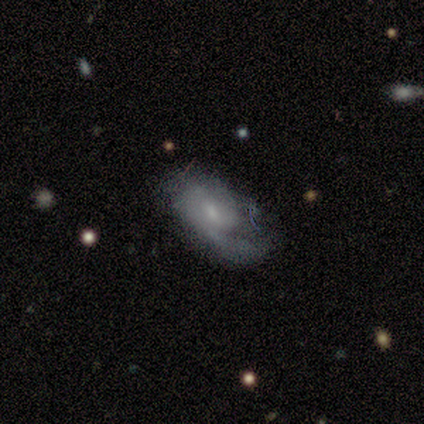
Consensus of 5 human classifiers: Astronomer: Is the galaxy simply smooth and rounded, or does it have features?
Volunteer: featured or disk — 100%.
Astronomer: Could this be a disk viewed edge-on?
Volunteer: no — 100%.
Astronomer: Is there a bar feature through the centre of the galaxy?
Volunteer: no — 60% (runner-up: weak, 40%).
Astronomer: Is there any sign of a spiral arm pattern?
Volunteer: yes — 80%.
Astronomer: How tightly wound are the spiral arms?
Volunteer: medium — 50%, tied with loose at 50%.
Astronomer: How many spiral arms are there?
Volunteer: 1 — 50%.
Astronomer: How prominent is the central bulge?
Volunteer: small — 60% (runner-up: moderate, 40%).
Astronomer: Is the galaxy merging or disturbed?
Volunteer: none — 40%, tied with major disturbance at 40%.